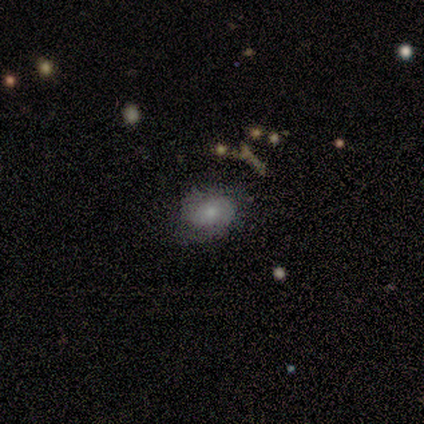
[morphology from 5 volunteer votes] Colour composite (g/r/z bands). It shows a smooth galaxy with no disk features (80%) that is in between round and cigar-shaped (75%). Merging: none (60%).